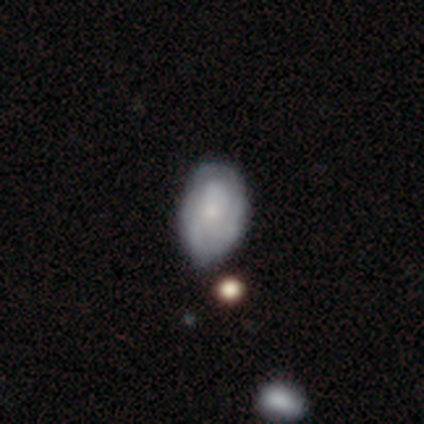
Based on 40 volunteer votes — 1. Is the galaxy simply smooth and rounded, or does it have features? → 55% featured or disk, 40% smooth, 5% star or artifact.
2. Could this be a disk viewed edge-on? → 100% no, 0% yes.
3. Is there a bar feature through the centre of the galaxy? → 91% no, 5% strong, 5% weak.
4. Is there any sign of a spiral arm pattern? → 68% yes, 32% no.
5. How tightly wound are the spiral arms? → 40% tight (tied), 40% medium (tied), 20% loose.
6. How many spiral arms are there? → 53% can't tell, 27% 3, 7% 1, 7% 2, 7% 4, 0% more than 4.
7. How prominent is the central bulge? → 50% small, 23% none, 14% moderate, 9% large, 5% dominant.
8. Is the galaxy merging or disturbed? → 29% minor disturbance, 24% none, 11% major disturbance, 11% merger.